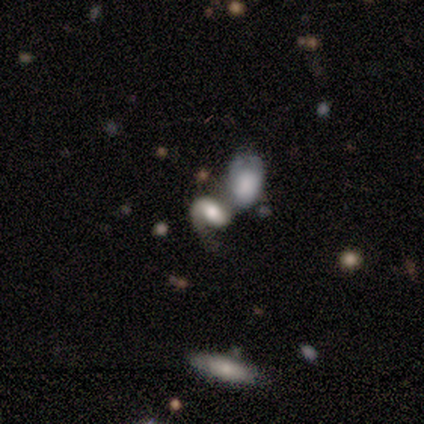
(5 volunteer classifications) smooth_or_featured: featured or disk (p=0.60) [alt: smooth p=0.40]
disk_edge_on: no (p=1.00)
bar: weak (p=0.67) [alt: no p=0.33]
has_spiral_arms: yes (p=1.00)
spiral_winding: loose (p=0.67) [alt: medium p=0.33]
spiral_arm_count: 2 (p=0.67) [alt: 1 p=0.33]
bulge_size: moderate (p=0.67) [alt: dominant p=0.33]
merging: major disturbance (p=0.40) [tied with: merger p=0.40]